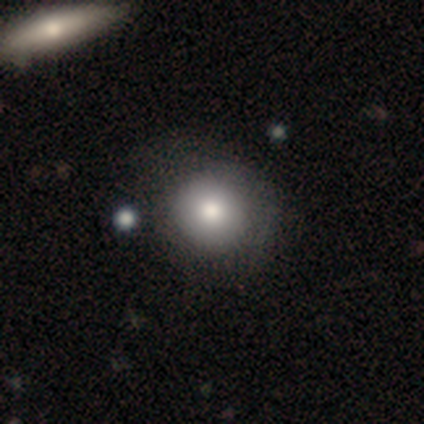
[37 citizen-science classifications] Smooth or featured? 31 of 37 (84%) said smooth. How rounded? 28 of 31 (90%) said round. Merging? 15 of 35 (43%) said none.